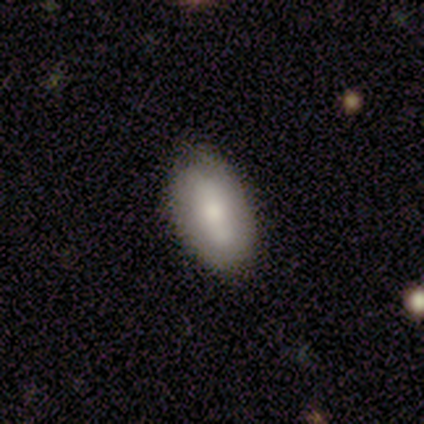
smooth-or-featured: smooth: 100% | featured or disk: 0% | star or artifact: 0%
  how-rounded: in between: 100% | round: 0% | cigar-shaped: 0%
  merging: none: 100% | minor disturbance: 0% | major disturbance: 0% | merger: 0%